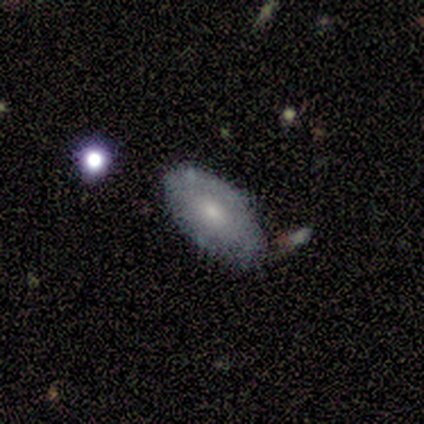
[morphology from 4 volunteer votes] Volunteers were most divided on "smooth or featured" (2-way tie): smooth: 50%, featured or disk: 50%, star or artifact: 0%. More confident: how rounded — in between (100%); merging — none (50%).